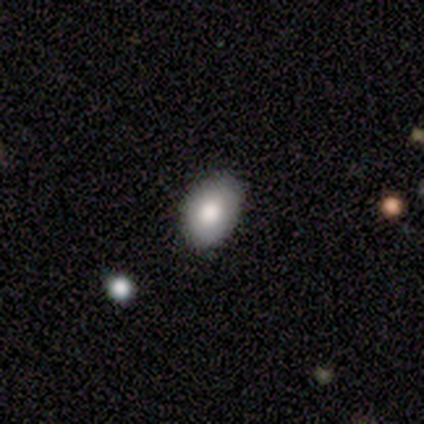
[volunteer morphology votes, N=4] A smooth galaxy with no disk features (100%) that is in between round and cigar-shaped (100%).

Vote fractions:
- Smooth or featured? smooth: 100% / featured or disk: 0% / star or artifact: 0%
- How rounded? in between: 100% / round: 0% / cigar-shaped: 0%
- Merging? none: 50% / minor disturbance: 25% / major disturbance: 25% / merger: 0%